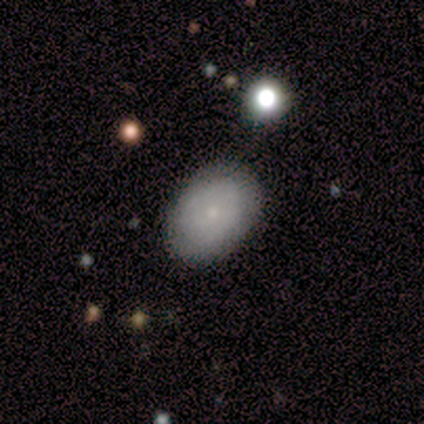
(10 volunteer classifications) A smooth galaxy with no disk features (70%) that is in between round and cigar-shaped (86%).

Vote fractions:
- Smooth or featured? smooth: 70% / featured or disk: 20% / star or artifact: 10%
- How rounded? in between: 86% / round: 14% / cigar-shaped: 0%
- Merging? none: 56% / minor disturbance: 44% / major disturbance: 0% / merger: 0%